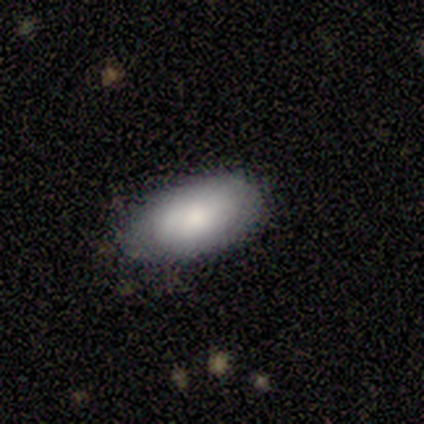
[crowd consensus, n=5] Q: Smooth or featured?
A: smooth (80%); runner-up: featured or disk (20%)
Q: How rounded?
A: in between (100%)
Q: Merging?
A: minor disturbance (60%); runner-up: none (40%)